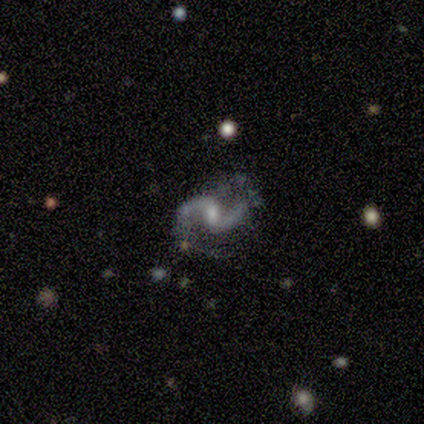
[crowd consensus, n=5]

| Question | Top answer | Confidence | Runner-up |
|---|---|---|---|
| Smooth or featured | featured or disk | 100% | — |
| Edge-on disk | no | 100% | — |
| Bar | weak | 100% | — |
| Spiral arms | yes | 80% | no (20%) |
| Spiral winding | medium | 50% | tied: loose (50%) |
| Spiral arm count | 2 | 100% | — |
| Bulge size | small | 100% | — |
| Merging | none | 60% | minor disturbance (20%) |